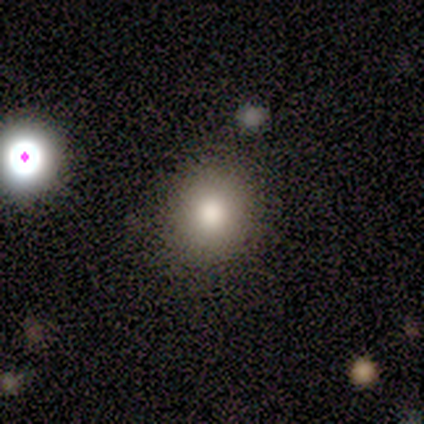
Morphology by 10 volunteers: Smooth or featured: smooth — 90% (featured or disk — 10%)
How rounded: round — 89% (in between — 11%)
Merging: none — 90% (minor disturbance — 10%)